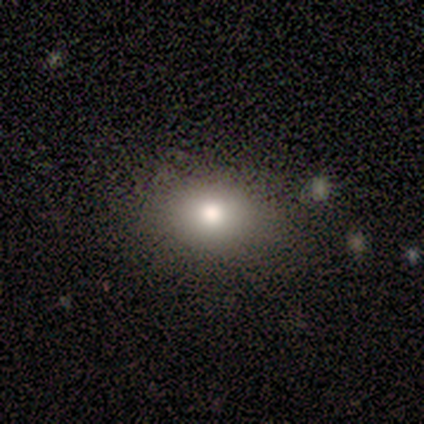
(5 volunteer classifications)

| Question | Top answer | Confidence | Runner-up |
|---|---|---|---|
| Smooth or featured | smooth | 80% | featured or disk (20%) |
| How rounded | in between | 75% | round (25%) |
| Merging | none | 100% | — |